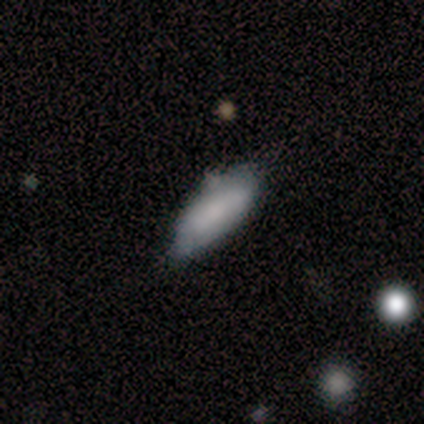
Smooth or featured?
  - smooth: 100% *
  - featured or disk: 0%
  - star or artifact: 0%
How rounded?
  - in between: 100% *
  - round: 0%
  - cigar-shaped: 0%
Merging?
  - none: 60% *
  - minor disturbance: 40%
  - major disturbance: 0%
  - merger: 0%